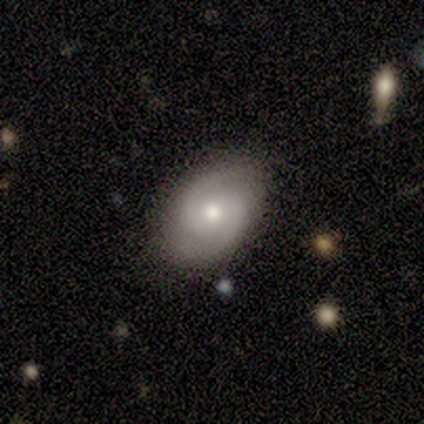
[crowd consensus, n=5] smooth-or-featured: smooth: 40% (tied) | featured or disk: 40% (tied) | star or artifact: 20%
  how-rounded: in between: 100% | round: 0% | cigar-shaped: 0%
  merging: none: 75% | minor disturbance: 25% | major disturbance: 0% | merger: 0%